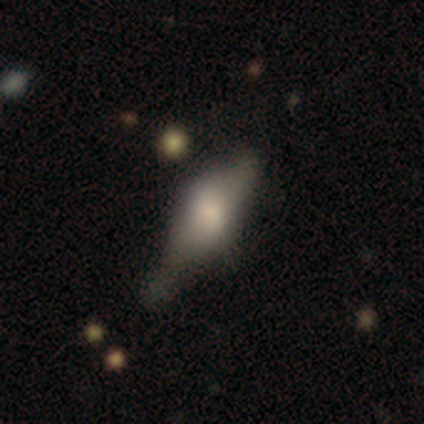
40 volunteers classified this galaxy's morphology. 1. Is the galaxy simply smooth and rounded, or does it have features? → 62% featured or disk, 35% smooth, 2% star or artifact.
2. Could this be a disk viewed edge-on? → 68% yes, 32% no.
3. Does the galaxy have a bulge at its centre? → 71% rounded, 24% boxy, 6% none.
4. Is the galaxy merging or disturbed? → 33% none, 26% minor disturbance, 15% merger, 3% major disturbance.